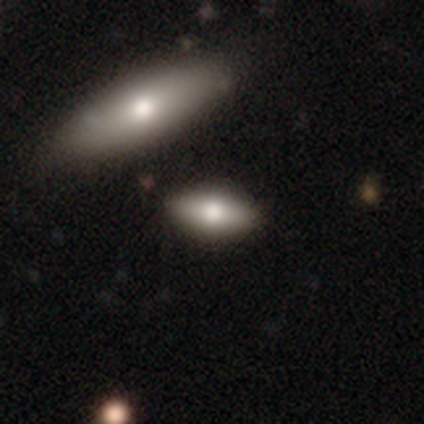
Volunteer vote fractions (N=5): Smooth or featured? smooth (60%)
How rounded? in between (100%)
Merging? none (100%)